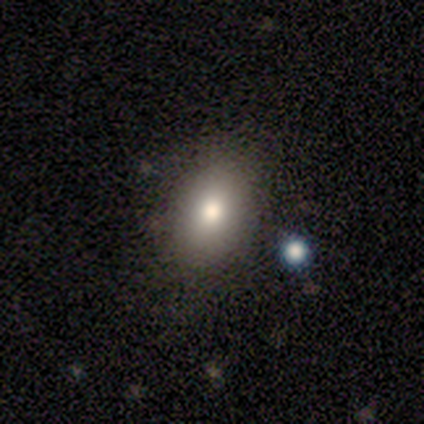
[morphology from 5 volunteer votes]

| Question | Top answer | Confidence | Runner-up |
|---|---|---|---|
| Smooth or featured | smooth | 60% | featured or disk (20%) |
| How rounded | in between | 100% | — |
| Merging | none | 50% | tied: major disturbance (50%) |